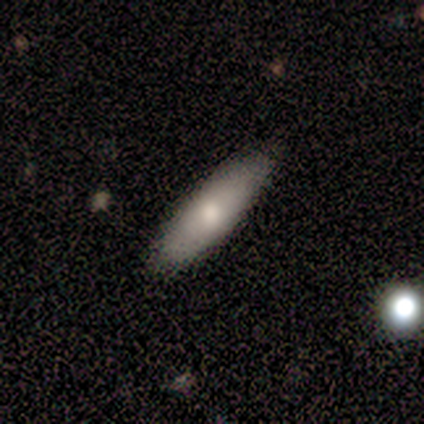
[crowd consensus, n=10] smooth 80%, featured or disk 20%, star or artifact 0%. Down the decision tree: how rounded — in between (88%); merging — none (80%).